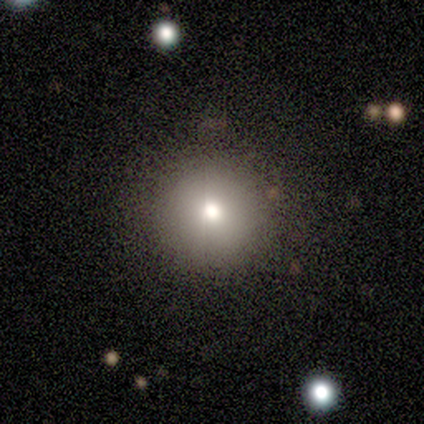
Consensus on every question: smooth or featured — smooth (100%); how rounded — round (100%); merging — none (100%).